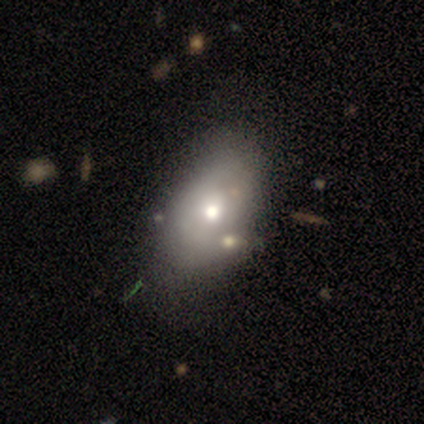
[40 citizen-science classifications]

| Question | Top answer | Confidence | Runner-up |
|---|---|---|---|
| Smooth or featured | smooth | 70% | featured or disk (22%) |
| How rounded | in between | 96% | cigar-shaped (4%) |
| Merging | none | 35% | minor disturbance (24%) |